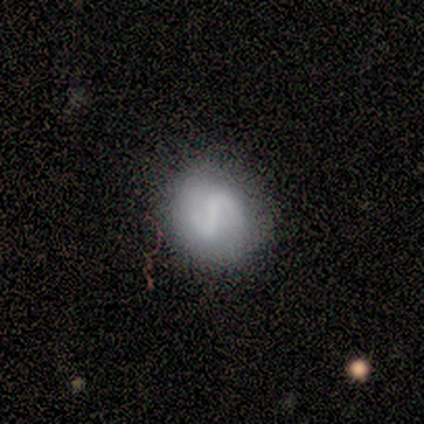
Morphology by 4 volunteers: Smooth or featured? smooth (50%, tied with featured or disk)
How rounded? round (50%, tied with in between)
Merging? none (50%)